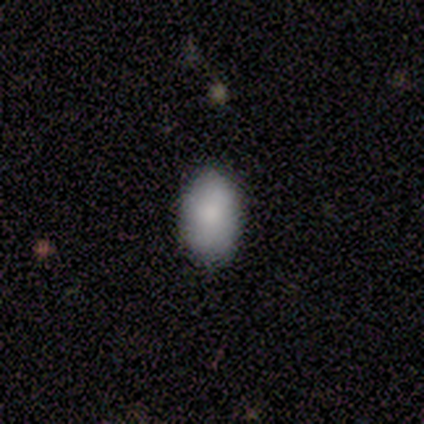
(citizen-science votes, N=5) Overall: smooth (100%). How rounded: in between (100%). Merging: none (80%).